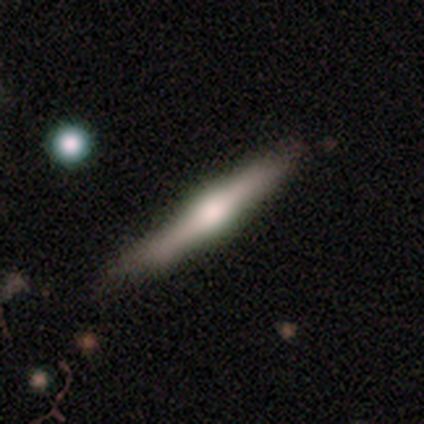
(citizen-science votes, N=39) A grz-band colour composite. It shows a featured or disk galaxy (82%) viewed edge-on (97%) with a rounded central bulge (87%). Merging: none (46%).